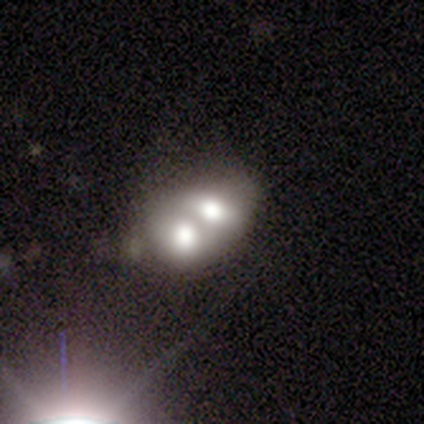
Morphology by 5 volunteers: A smooth galaxy with no disk features (80%) that is in between round and cigar-shaped (75%). Merging: merger (80%).